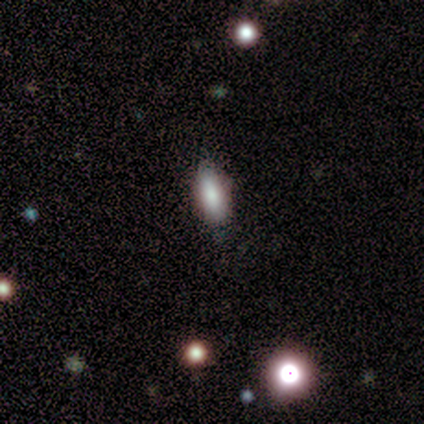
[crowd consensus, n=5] Smooth or featured: smooth — 100%
How rounded: in between — 100%
Merging: none — 100%